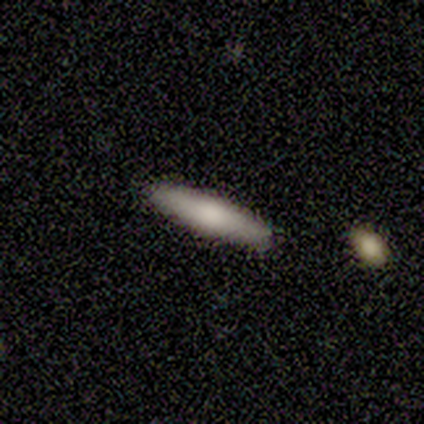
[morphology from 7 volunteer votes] This appears to be a smooth galaxy with no disk features (86%) that is cigar-shaped (100%). Merging: none (86%).